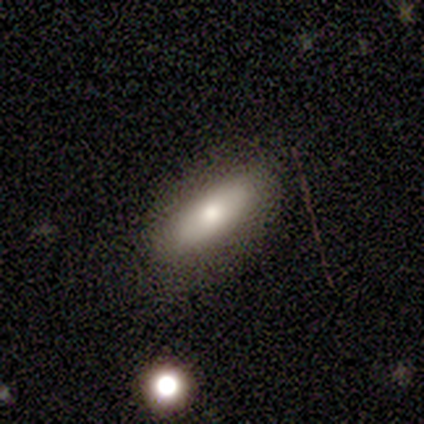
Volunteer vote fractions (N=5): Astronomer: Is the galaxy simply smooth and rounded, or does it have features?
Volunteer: smooth — 40%, tied with featured or disk at 40%.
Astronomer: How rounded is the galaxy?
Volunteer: in between — 50%, tied with cigar-shaped at 50%.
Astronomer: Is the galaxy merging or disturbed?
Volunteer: none — 100%.